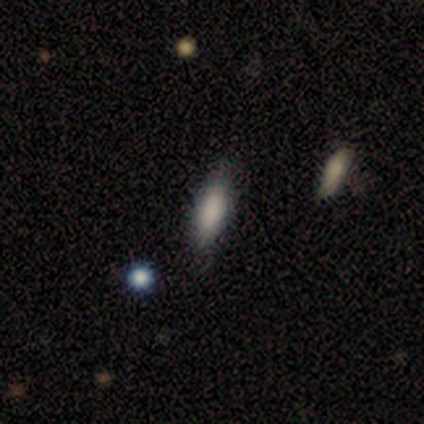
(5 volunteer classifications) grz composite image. It shows a smooth galaxy with no disk features (100%) that is cigar-shaped (80%). Merging: none (80%).